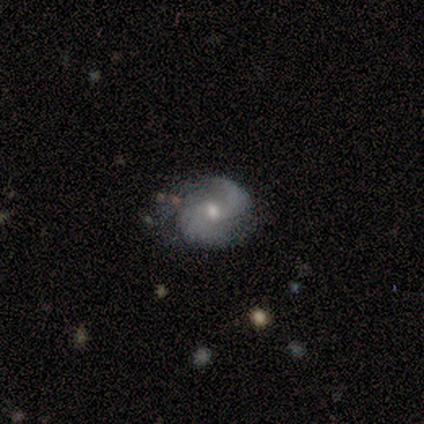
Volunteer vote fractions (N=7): Q: Smooth or featured?
A: featured or disk (86%); runner-up: smooth (14%)
Q: Edge-on disk?
A: no (100%)
Q: Bar?
A: no (67%); runner-up: weak (33%)
Q: Spiral arms?
A: yes (83%); runner-up: no (17%)
Q: Spiral winding?
A: medium (80%); runner-up: loose (20%)
Q: Spiral arm count?
A: 2 (100%)
Q: Bulge size?
A: moderate (50%); runner-up: small (33%)
Q: Merging?
A: none (43%); tied with: minor disturbance (43%)